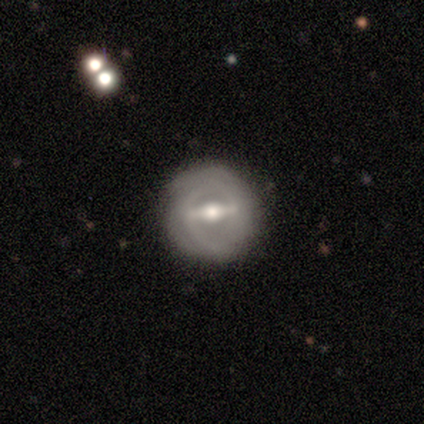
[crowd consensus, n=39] smooth-or-featured: featured or disk: 79% | smooth: 21% | star or artifact: 0%
  disk-edge-on: no: 84% | yes: 16%
    bar: strong: 58% | weak: 35% | no: 8%
    has-spiral-arms: yes: 65% | no: 35%
      spiral-winding: tight: 76% | medium: 12% | loose: 12%
      spiral-arm-count: can't tell: 53% | 2: 35% | 1: 6% | 3: 6% | 4: 0% | more than 4: 0%
    bulge-size: moderate: 81% | large: 15% | none: 4% | dominant: 0% | small: 0%
  merging: none: 82% | minor disturbance: 15% | major disturbance: 3% | merger: 0%